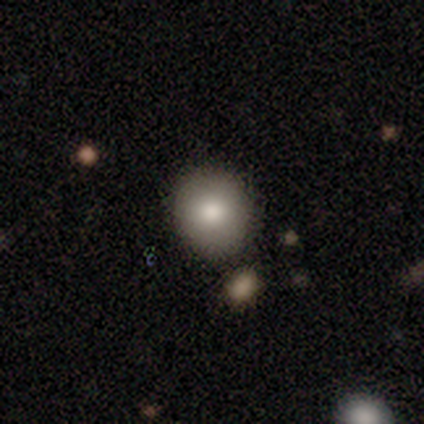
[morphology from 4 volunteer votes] This is possibly a smooth galaxy (50%). How rounded: clearly round (100%). Merging: clearly none (100%).